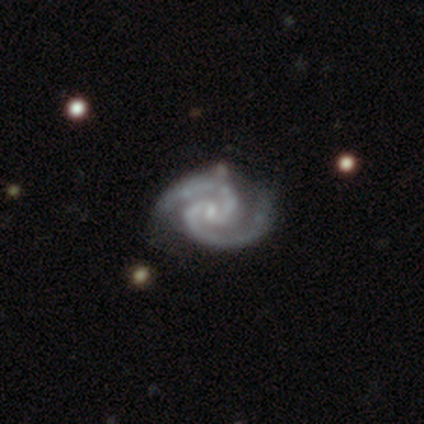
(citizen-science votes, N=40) Overall: featured or disk (98%). Edge-on disk: no (97%). Bar: no (50%; weak 39%). Spiral arms: yes (100%). Spiral arm count: 2 (100%). Spiral winding: tight (55%; medium 37%). Bulge size: small (66%). Merging: none (69%).